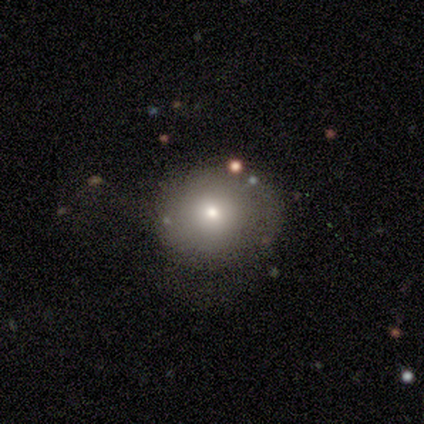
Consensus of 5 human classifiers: smooth 40% (tied), featured or disk 40% (tied), star or artifact 20%. Down the decision tree: how rounded — round (50%, tied with in between); merging — major disturbance (50%).